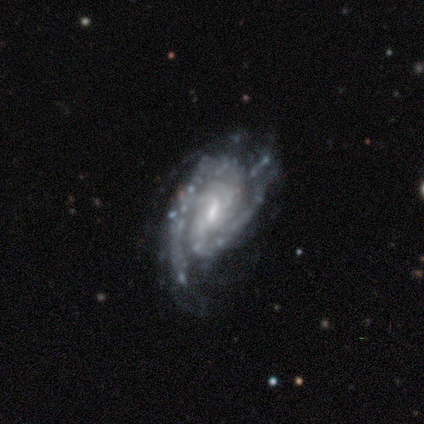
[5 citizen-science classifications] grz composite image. It shows a featured or disk galaxy (100%) with no bar (60%), 2 (60%) medium (60%) spiral arms (100%) and a small central bulge (60%). Merging: none (60%).